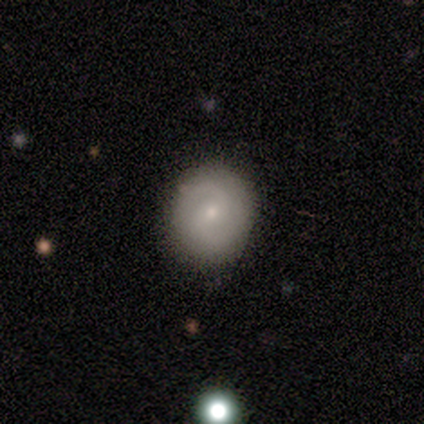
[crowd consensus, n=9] This is likely a featured or disk galaxy (78%). It is clearly not viewed edge-on (100%). Bar: clearly no (86%). Spiral arm pattern: likely yes (71%). Spiral arm count: clearly 2 (100%). Spiral winding: clearly medium (80%). Central bulge: likely small (71%). Merging: clearly none (89%).